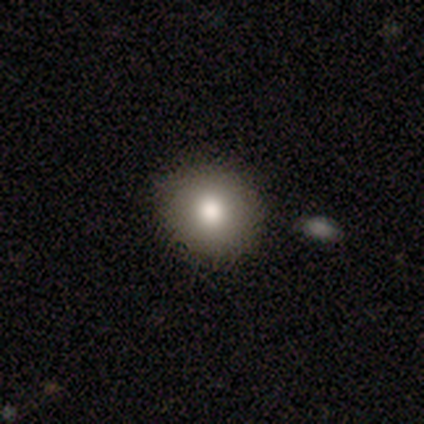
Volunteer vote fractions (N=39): Overall: smooth (72%). How rounded: round (100%). Merging: none (89%).